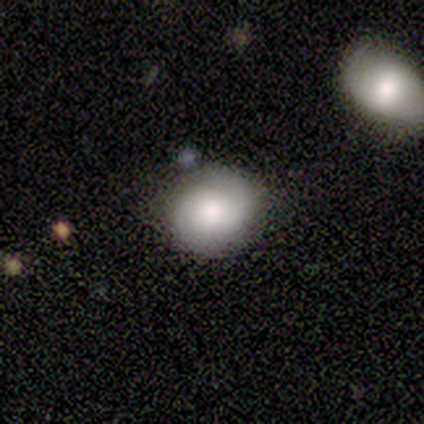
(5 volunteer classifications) smooth_or_featured: featured or disk (p=0.80) [alt: smooth p=0.20]
disk_edge_on: no (p=1.00)
bar: weak (p=0.50) [tied with: no p=0.50]
has_spiral_arms: yes (p=1.00)
spiral_winding: medium (p=0.50) [alt: tight p=0.25]
spiral_arm_count: 2 (p=1.00)
bulge_size: moderate (p=0.75) [alt: large p=0.25]
merging: none (p=0.60) [alt: minor disturbance p=0.20]